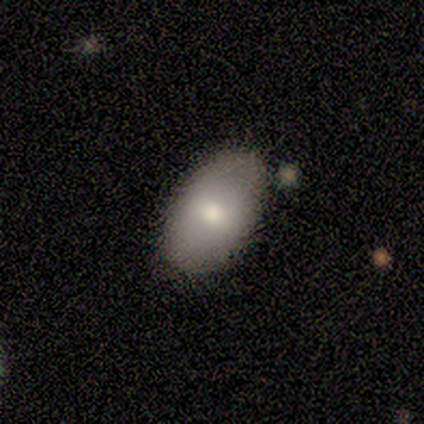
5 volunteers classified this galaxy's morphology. Overall: featured or disk (100%). Edge-on disk: no (100%). Bar: no (60%; strong 40%). Spiral arms: no (80%). Bulge size: small (60%; moderate 40%). Merging: none (60%; merger 40%).